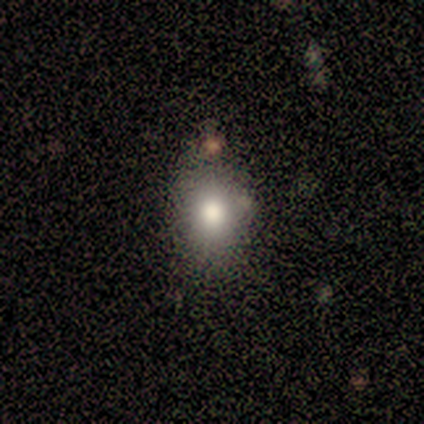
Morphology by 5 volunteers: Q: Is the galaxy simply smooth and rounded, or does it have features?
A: smooth — 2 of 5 (40%, tied with star or artifact).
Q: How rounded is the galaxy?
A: round — 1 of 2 (50%, tied with in between).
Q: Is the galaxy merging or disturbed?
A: minor disturbance — 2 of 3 (67%).